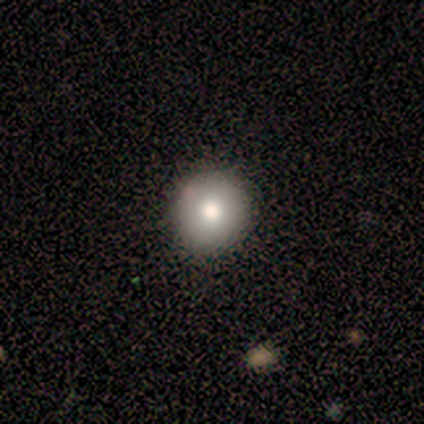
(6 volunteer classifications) Morphology: type=smooth (83%); roundness=round (60%); merging=none (83%).